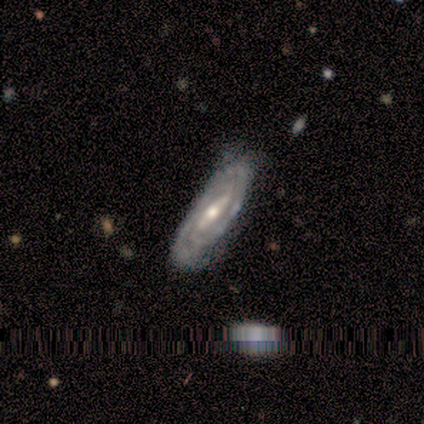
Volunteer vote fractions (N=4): Q: Smooth or featured?
A: featured or disk (100%)
Q: Edge-on disk?
A: no (100%)
Q: Bar?
A: strong (50%); tied with: weak (50%)
Q: Spiral arms?
A: yes (100%)
Q: Spiral winding?
A: tight (50%); tied with: medium (50%)
Q: Spiral arm count?
A: 2 (50%); tied with: can't tell (50%)
Q: Bulge size?
A: moderate (75%); runner-up: small (25%)
Q: Merging?
A: none (100%)